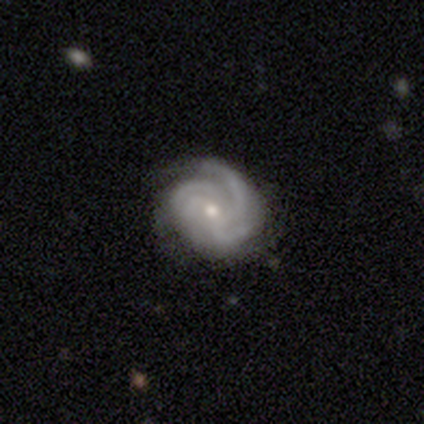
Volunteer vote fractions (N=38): smooth_or_featured: featured or disk (p=0.84) [alt: smooth p=0.11]
disk_edge_on: no (p=0.97) [alt: yes p=0.03]
bar: no (p=0.71) [alt: weak p=0.19]
has_spiral_arms: yes (p=1.00)
spiral_winding: tight (p=0.55) [alt: medium p=0.42]
spiral_arm_count: 4 (p=0.48) [alt: 3 p=0.35]
bulge_size: small (p=0.55) [alt: moderate p=0.45]
merging: none (p=0.61) [alt: minor disturbance p=0.19]